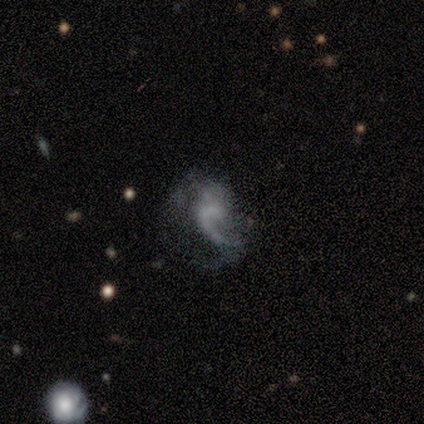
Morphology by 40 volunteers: Smooth or featured? 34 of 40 (85%) said featured or disk. Edge-on disk? 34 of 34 (100%) said no. Bar? 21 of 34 (62%) said no. Spiral arms? 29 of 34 (85%) said yes. Spiral winding? 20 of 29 (69%) said loose. Spiral arm count? 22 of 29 (76%) said 1. Bulge size? 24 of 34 (71%) said none. Merging? 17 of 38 (45%) said none.